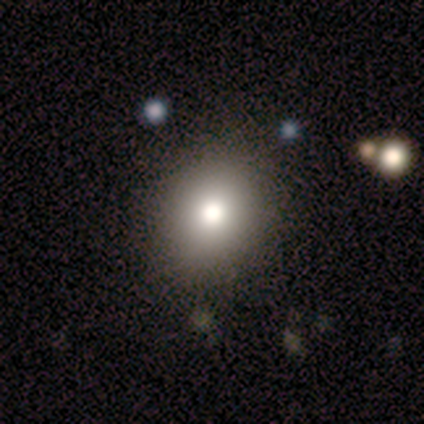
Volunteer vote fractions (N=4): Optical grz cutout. It shows a smooth galaxy with no disk features (75%) that is round (67%). Merging: none (100%).